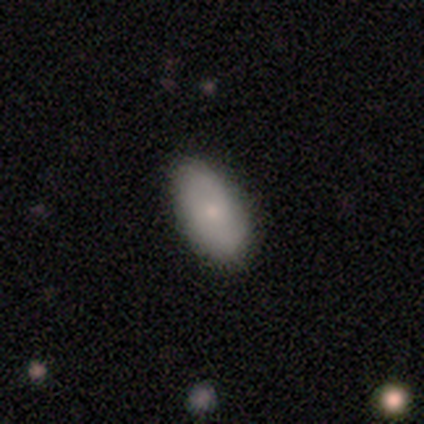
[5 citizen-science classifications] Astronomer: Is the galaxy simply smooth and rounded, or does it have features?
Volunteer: smooth — 100%.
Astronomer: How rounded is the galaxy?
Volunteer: in between — 100%.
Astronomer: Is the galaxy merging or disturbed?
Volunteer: none — 80%.